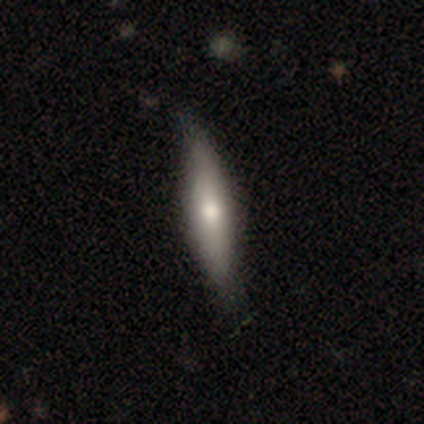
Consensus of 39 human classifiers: A smooth galaxy with no disk features (59%) that is cigar-shaped (83%).

Vote fractions:
- Smooth or featured? smooth: 59% / featured or disk: 36% / star or artifact: 5%
- How rounded? cigar-shaped: 83% / in between: 17% / round: 0%
- Merging? none: 49% / minor disturbance: 11% / merger: 3% / major disturbance: 0%